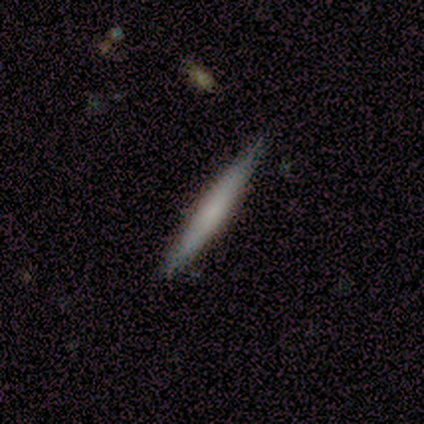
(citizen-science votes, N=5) A smooth galaxy with no disk features (60%) that is cigar-shaped (100%). Merging: none (80%).